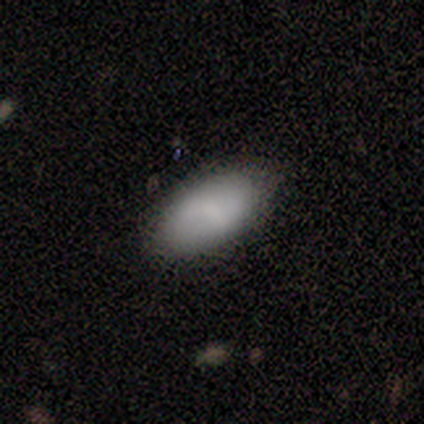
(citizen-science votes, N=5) This appears to be a smooth galaxy with no disk features (100%) that is in between round and cigar-shaped (100%). Merging: none (80%).